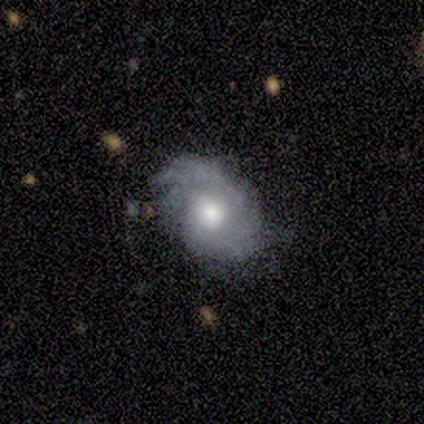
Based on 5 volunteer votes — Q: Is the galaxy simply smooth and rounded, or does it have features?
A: featured or disk — 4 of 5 (80%).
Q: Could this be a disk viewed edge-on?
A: no — 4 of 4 (100%).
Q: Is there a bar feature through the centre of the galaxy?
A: no — 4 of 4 (100%).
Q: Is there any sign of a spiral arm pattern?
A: yes — 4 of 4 (100%).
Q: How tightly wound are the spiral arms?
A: medium — 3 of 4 (75%).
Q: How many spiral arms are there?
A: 3 — 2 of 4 (50%).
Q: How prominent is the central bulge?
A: moderate — 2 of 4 (50%).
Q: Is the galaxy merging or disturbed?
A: none — 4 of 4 (100%).